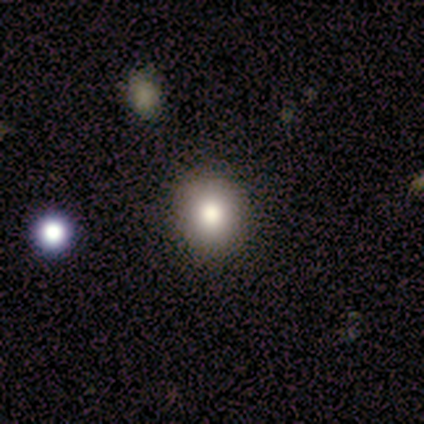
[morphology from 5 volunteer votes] type=smooth (100%); roundness=round (80%); merging=none (100%).